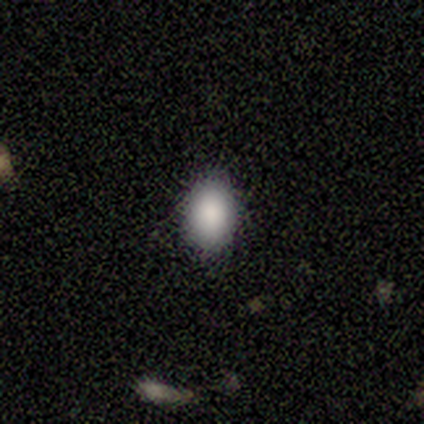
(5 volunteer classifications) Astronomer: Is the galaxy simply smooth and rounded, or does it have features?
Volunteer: smooth — 100%.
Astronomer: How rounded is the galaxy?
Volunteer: round — 60% (runner-up: in between, 40%).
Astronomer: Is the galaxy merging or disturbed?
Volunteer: none — 100%.